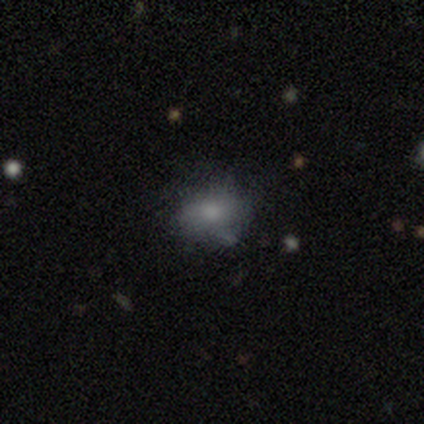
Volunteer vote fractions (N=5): Overall: smooth (80%). How rounded: round (75%). Merging: none (75%).